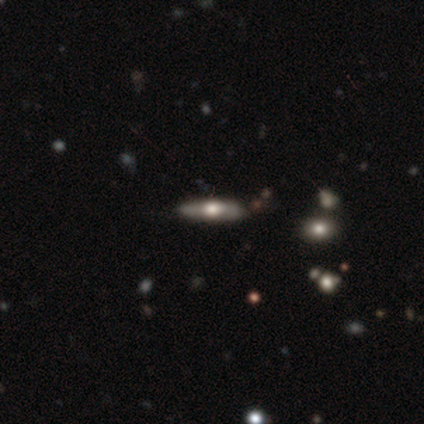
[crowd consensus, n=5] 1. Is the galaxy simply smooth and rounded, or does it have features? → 80% featured or disk, 20% smooth, 0% star or artifact.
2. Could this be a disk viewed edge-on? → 100% yes, 0% no.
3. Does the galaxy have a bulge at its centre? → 100% rounded, 0% boxy, 0% none.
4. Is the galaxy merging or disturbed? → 80% none, 20% minor disturbance, 0% major disturbance, 0% merger.